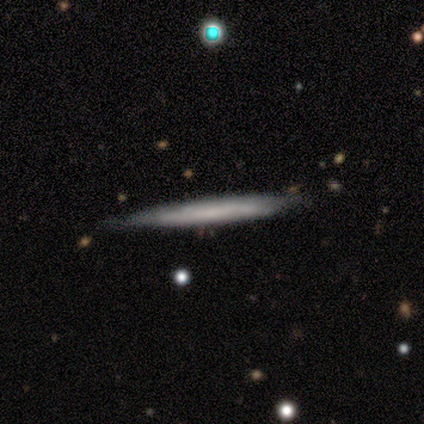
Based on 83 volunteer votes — Morphology: type=smooth (48%); roundness=cigar-shaped (100%); merging=none (77%).